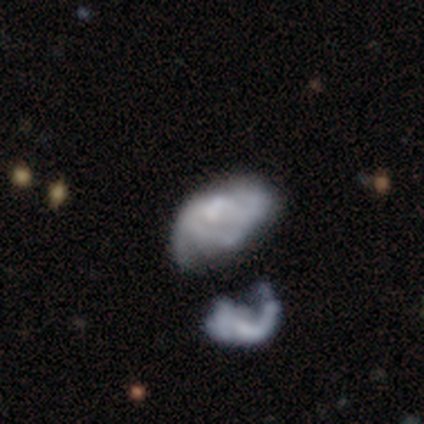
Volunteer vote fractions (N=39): Overall: featured or disk (67%; smooth 28%). Edge-on disk: no (96%). Bar: no (88%). Spiral arms: no (72%). Bulge size: none (64%). Merging: merger (32%; major disturbance 22%).